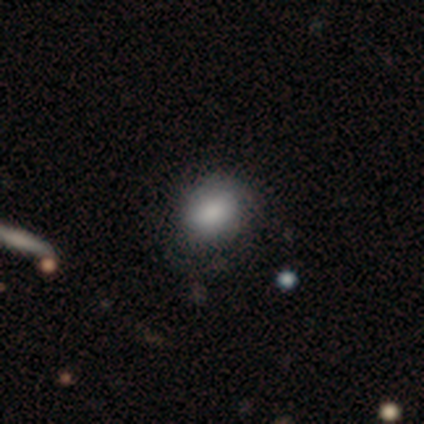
smooth_or_featured: smooth (p=0.57) [alt: featured or disk p=0.43]
how_rounded: in between (p=0.75) [alt: round p=0.25]
merging: none (p=0.57) [alt: major disturbance p=0.29]